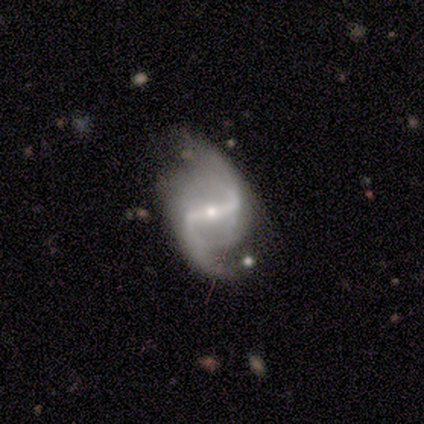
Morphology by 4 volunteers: A featured or disk galaxy (100%) with a strong bar (100%), 2 (100%) loose (100%) spiral arms (100%) and a small central bulge (75%).

Vote fractions:
- Smooth or featured? featured or disk: 100% / smooth: 0% / star or artifact: 0%
- Edge-on disk? no: 100% / yes: 0%
- Bar? strong: 100% / weak: 0% / no: 0%
- Spiral arms? yes: 100% / no: 0%
- Spiral winding? loose: 100% / tight: 0% / medium: 0%
- Spiral arm count? 2: 100% / 1: 0% / 3: 0% / 4: 0% / more than 4: 0% / can't tell: 0%
- Bulge size? small: 75% / moderate: 25% / dominant: 0% / large: 0% / none: 0%
- Merging? none: 100% / minor disturbance: 0% / major disturbance: 0% / merger: 0%